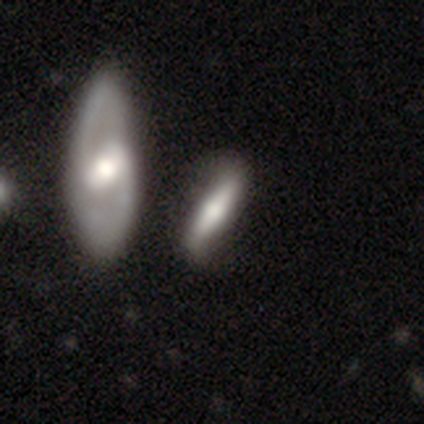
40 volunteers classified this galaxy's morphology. featured or disk 60%, smooth 40%, star or artifact 0%. Down the decision tree: edge-on disk — yes (50%, tied with no); edge-on bulge — rounded (75%); merging — none (38%).